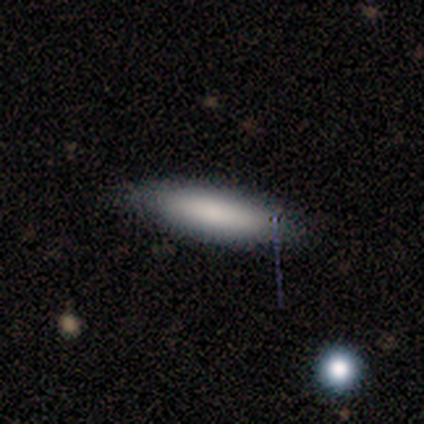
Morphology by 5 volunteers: smooth-or-featured: smooth: 100% | featured or disk: 0% | star or artifact: 0%
  how-rounded: cigar-shaped: 80% | in between: 20% | round: 0%
  merging: none: 80% | minor disturbance: 20% | major disturbance: 0% | merger: 0%